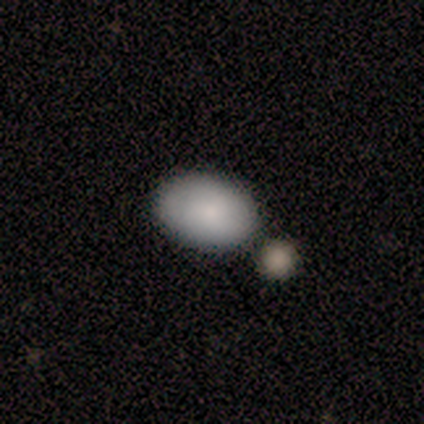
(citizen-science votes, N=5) Smooth or featured: smooth — 60% (featured or disk — 40%)
How rounded: in between — 100%
Merging: none — 60% (minor disturbance — 40%)